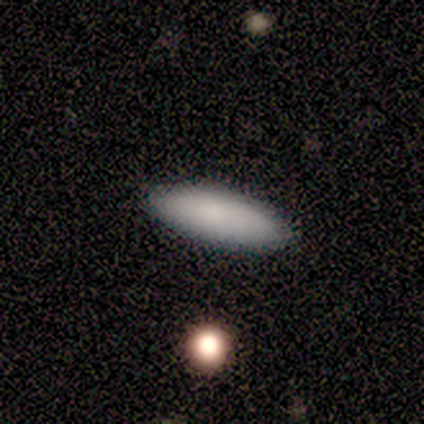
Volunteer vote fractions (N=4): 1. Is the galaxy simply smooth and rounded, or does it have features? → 100% smooth, 0% featured or disk, 0% star or artifact.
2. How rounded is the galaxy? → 75% in between, 25% cigar-shaped, 0% round.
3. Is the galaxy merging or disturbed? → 100% none, 0% minor disturbance, 0% major disturbance, 0% merger.